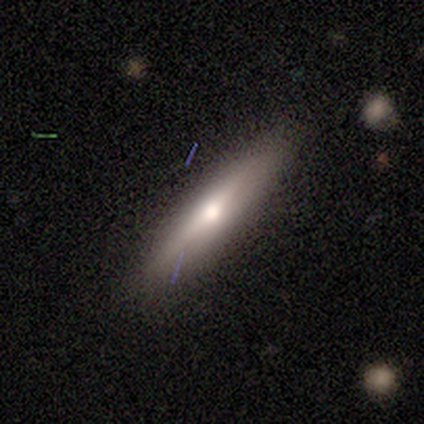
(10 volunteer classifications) Overall: smooth (70%; featured or disk 30%). How rounded: cigar-shaped (86%). Merging: none (70%; minor disturbance 30%).